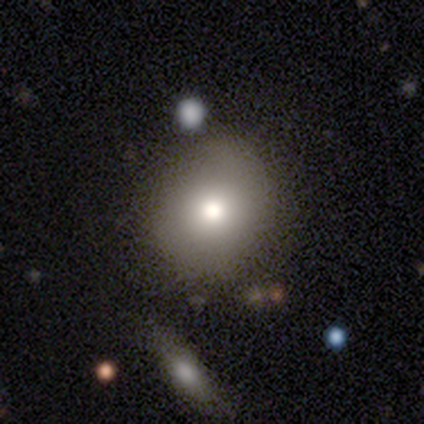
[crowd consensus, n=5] smooth_or_featured: smooth (p=0.40) [tied with: star or artifact p=0.40]
how_rounded: round (p=1.00)
merging: none (p=1.00)